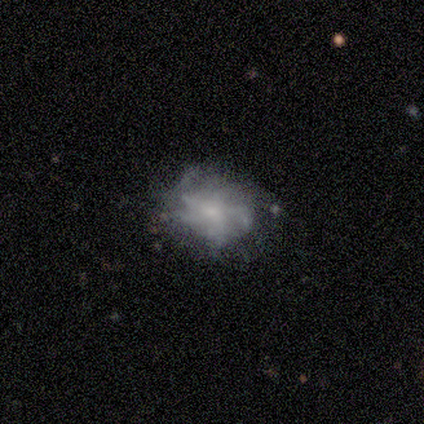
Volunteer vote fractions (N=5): Volunteers were most divided on "merging": none: 80%, major disturbance: 20%, minor disturbance: 0%, merger: 0%. More confident: smooth or featured — smooth (100%); how rounded — in between (100%).